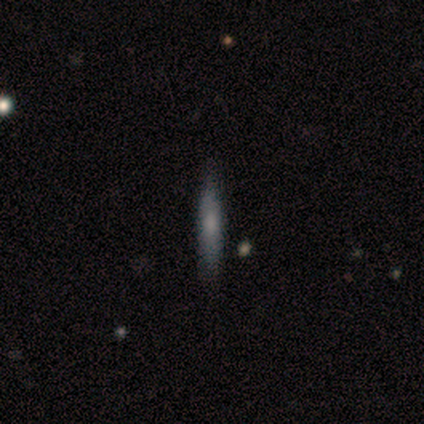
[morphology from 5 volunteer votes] A featured or disk galaxy (100%) viewed edge-on (80%) with a rounded central bulge (75%).

Vote fractions:
- Smooth or featured? featured or disk: 100% / smooth: 0% / star or artifact: 0%
- Edge-on disk? yes: 80% / no: 20%
- Edge-on bulge? rounded: 75% / boxy: 25% / none: 0%
- Merging? none: 100% / minor disturbance: 0% / major disturbance: 0% / merger: 0%